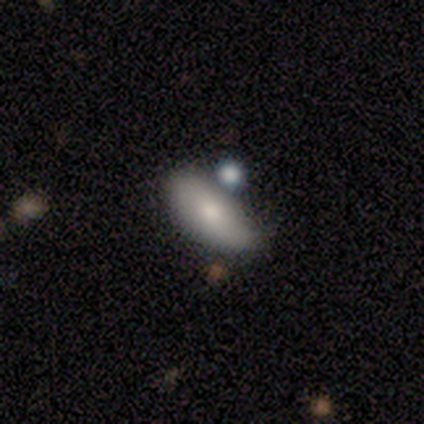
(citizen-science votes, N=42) smooth-or-featured: smooth: 64% | featured or disk: 26% | star or artifact: 10%
  how-rounded: in between: 78% | cigar-shaped: 19% | round: 4%
  merging: none: 63% | minor disturbance: 32% | merger: 5% | major disturbance: 0%